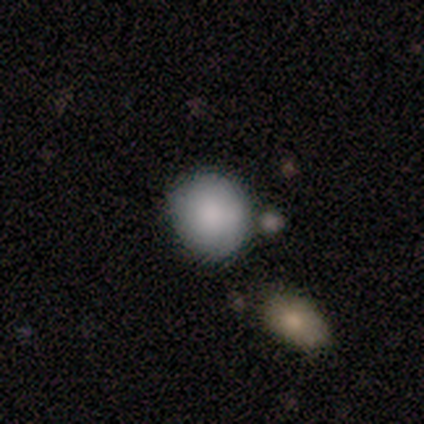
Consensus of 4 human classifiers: Overall: smooth (100%). How rounded: round (75%). Merging: none (75%).